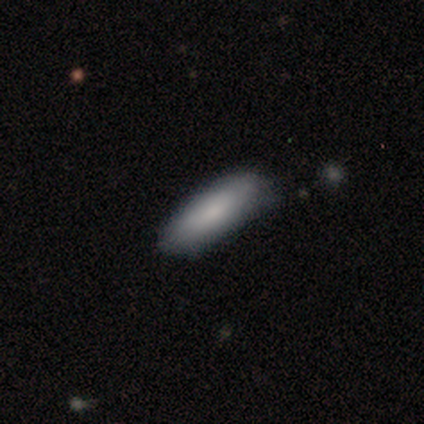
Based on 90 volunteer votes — smooth-or-featured: smooth: 84% | featured or disk: 10% | star or artifact: 6%
  how-rounded: in between: 50% (tied) | cigar-shaped: 50% (tied) | round: 0%
  merging: none: 65% | minor disturbance: 31% | major disturbance: 5% | merger: 0%